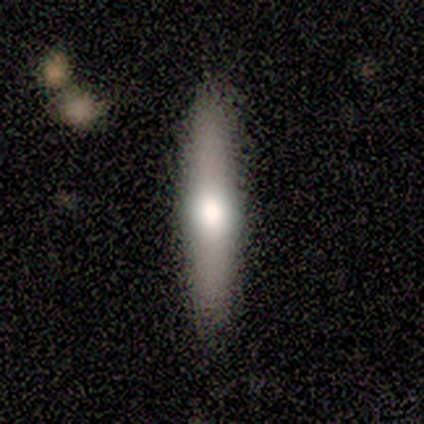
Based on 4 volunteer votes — Smooth or featured? smooth (50%)
How rounded? cigar-shaped (100%)
Merging? none (100%)